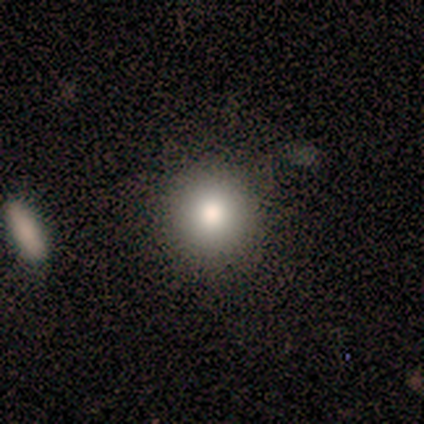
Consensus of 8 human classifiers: A smooth galaxy with no disk features (62%) that is round (80%). Merging: none (83%).